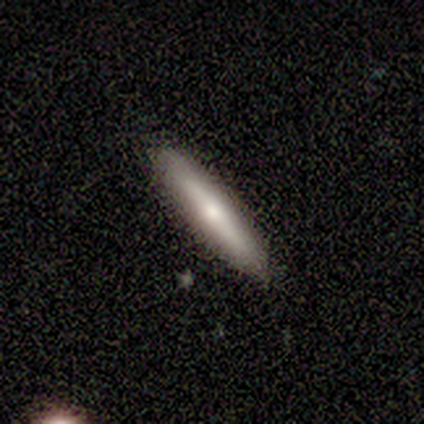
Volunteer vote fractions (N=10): Morphology: type=smooth (60%); roundness=cigar-shaped (100%); merging=none (90%).